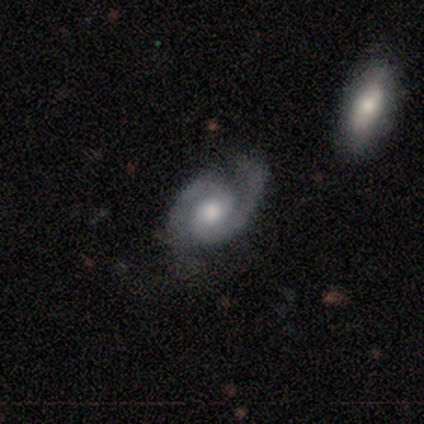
This is clearly a featured or disk galaxy (100%). It is clearly not viewed edge-on (80%). Bar: possibly weak (50%, tied with no). Spiral arm pattern: clearly yes (100%). Spiral arm count: clearly 2 (100%). Spiral winding: possibly tight (50%, tied with loose). Central bulge: possibly moderate (50%, tied with small). Merging: likely minor disturbance (60%).